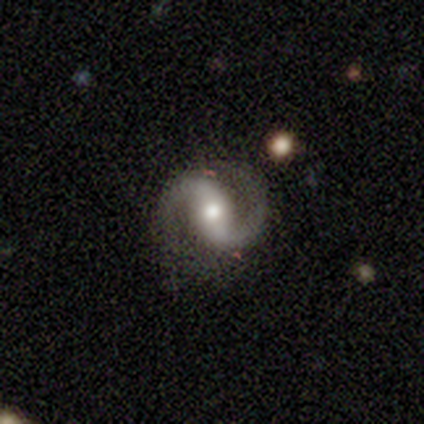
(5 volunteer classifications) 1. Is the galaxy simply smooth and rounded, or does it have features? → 100% featured or disk, 0% smooth, 0% star or artifact.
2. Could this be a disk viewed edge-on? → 100% no, 0% yes.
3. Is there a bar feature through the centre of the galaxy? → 40% strong (tied), 40% no (tied), 20% weak.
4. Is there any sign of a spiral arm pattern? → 100% yes, 0% no.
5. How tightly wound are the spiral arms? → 80% loose, 20% medium, 0% tight.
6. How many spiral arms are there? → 80% 2, 20% 1, 0% 3, 0% 4, 0% more than 4, 0% can't tell.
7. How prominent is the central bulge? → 80% moderate, 20% large, 0% dominant, 0% small, 0% none.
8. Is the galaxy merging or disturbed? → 80% none, 20% minor disturbance, 0% major disturbance, 0% merger.